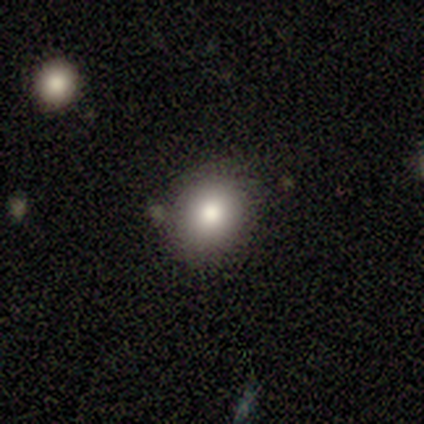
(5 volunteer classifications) Smooth or featured? smooth (100%)
How rounded? round (60%)
Merging? none (80%)